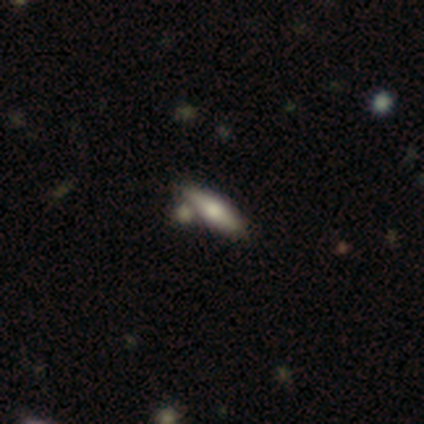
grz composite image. It shows a smooth galaxy with no disk features (50%, tied with featured or disk) that is in between round and cigar-shaped (100%). Merging: merger (50%).